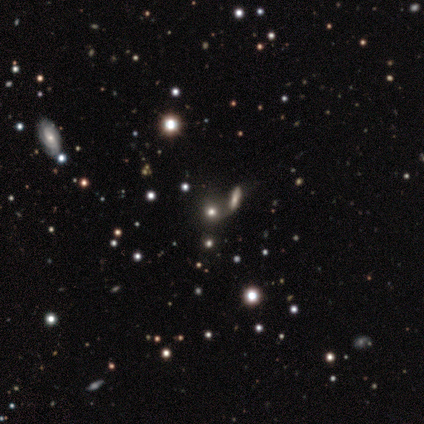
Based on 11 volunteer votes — smooth-or-featured: smooth: 55% | star or artifact: 27% | featured or disk: 18%
  how-rounded: round: 83% | in between: 17% | cigar-shaped: 0%
  merging: none: 50% | merger: 25% | minor disturbance: 12% | major disturbance: 12%